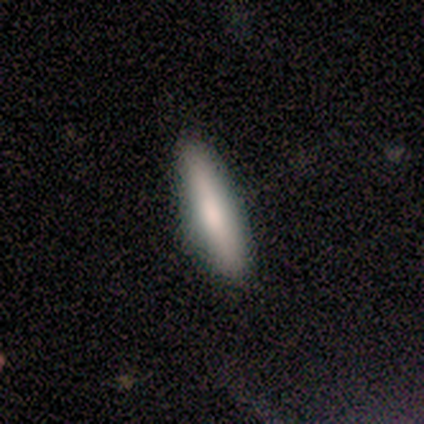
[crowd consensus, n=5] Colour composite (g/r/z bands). It shows a smooth galaxy with no disk features (60%) that is cigar-shaped (100%). Merging: none (100%).